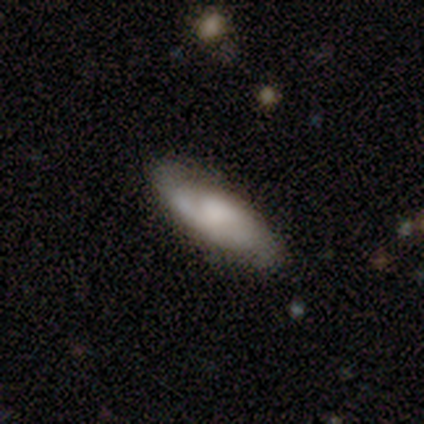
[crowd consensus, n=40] Smooth or featured? 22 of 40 (55%) said featured or disk. Edge-on disk? 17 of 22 (77%) said no. Bar? 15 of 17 (88%) said no. Spiral arms? 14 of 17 (82%) said yes. Spiral winding? 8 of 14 (57%) said medium. Spiral arm count? 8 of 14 (57%) said 2. Bulge size? 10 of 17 (59%) said none. Merging? 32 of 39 (82%) said none.